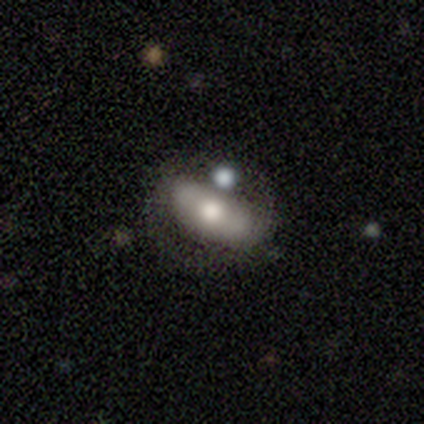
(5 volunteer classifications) Smooth or featured? 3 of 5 (60%) said featured or disk. Edge-on disk? 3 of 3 (100%) said no. Bar? 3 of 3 (100%) said no. Spiral arms? 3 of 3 (100%) said no. Bulge size? 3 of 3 (100%) said moderate. Merging? 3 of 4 (75%) said minor disturbance.